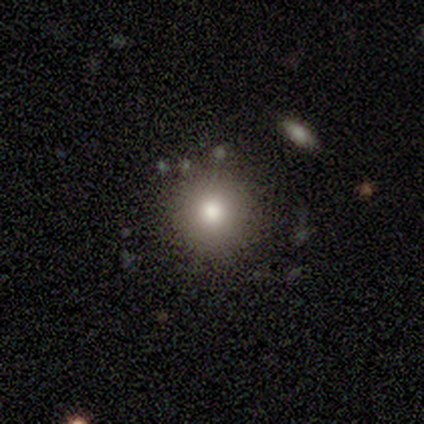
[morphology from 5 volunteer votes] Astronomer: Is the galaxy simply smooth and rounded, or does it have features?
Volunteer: smooth — 60% (runner-up: featured or disk, 40%).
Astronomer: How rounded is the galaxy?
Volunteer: round — 100%.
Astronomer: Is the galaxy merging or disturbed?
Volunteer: none — 80%.